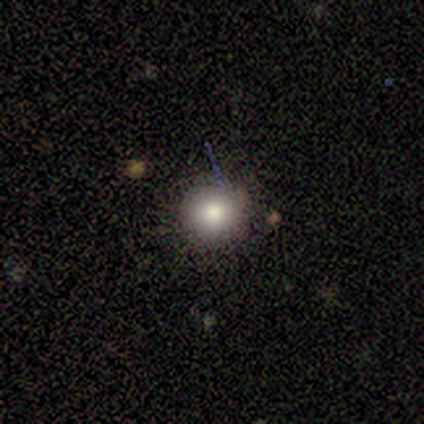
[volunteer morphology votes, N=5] Smooth or featured? smooth (100%)
How rounded? round (100%)
Merging? none (60%)